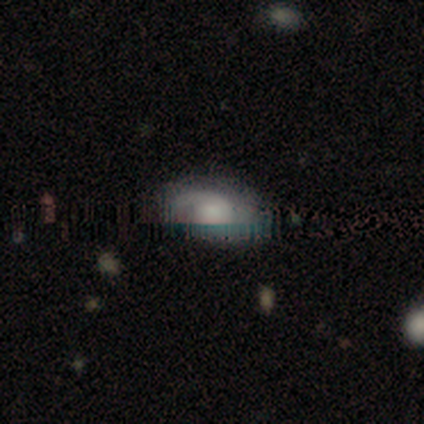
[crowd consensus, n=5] Overall: featured or disk (60%; smooth 20%). Edge-on disk: no (100%). Bar: no (100%). Spiral arms: yes (67%; no 33%). Spiral arm count: can't tell (100%). Spiral winding: tight (50%, tied with loose). Bulge size: dominant (33%, tied with moderate and small). Merging: none (75%).